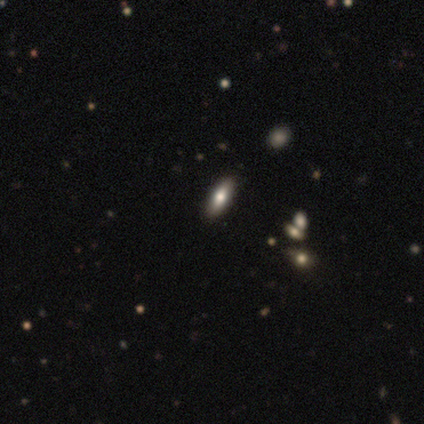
Smooth or featured? smooth (100%)
How rounded? in between (100%)
Merging? none (100%)